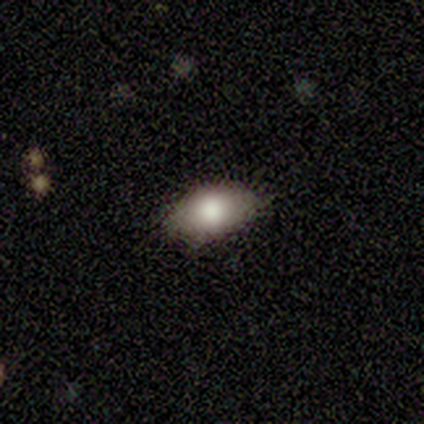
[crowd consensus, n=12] A smooth galaxy with no disk features (67%) that is in between round and cigar-shaped (100%). Merging: none (100%).